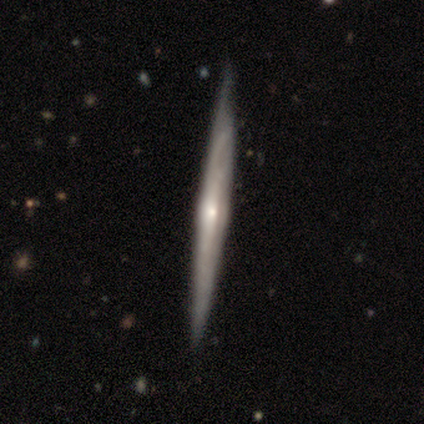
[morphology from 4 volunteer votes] This is clearly a featured or disk galaxy (100%). It is clearly viewed edge-on (100%). Edge-on bulge: possibly rounded (50%). Merging: likely none (75%).